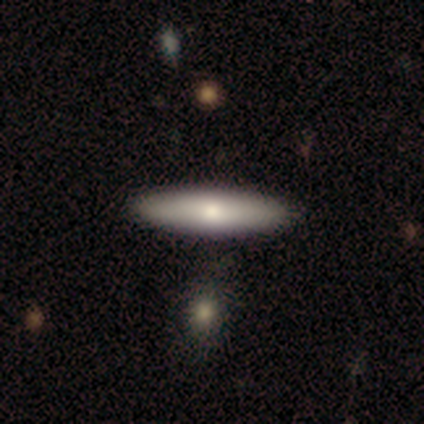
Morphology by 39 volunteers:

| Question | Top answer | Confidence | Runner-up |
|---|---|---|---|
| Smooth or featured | smooth | 79% | featured or disk (21%) |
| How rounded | cigar-shaped | 68% | in between (29%) |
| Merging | none | 62% | minor disturbance (5%) |